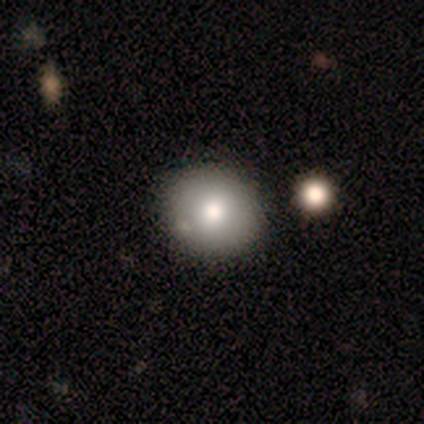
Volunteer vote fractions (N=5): Overall: smooth (60%; star or artifact 40%). How rounded: round (67%; in between 33%). Merging: minor disturbance (67%; none 33%).